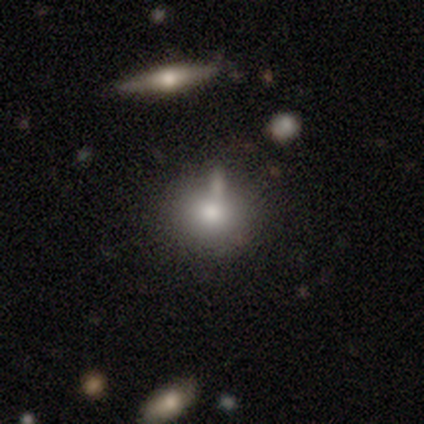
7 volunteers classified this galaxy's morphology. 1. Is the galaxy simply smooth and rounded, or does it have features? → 86% smooth, 14% star or artifact, 0% featured or disk.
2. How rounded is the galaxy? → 83% round, 17% in between, 0% cigar-shaped.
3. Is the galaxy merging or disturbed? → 67% none, 17% minor disturbance, 17% merger, 0% major disturbance.